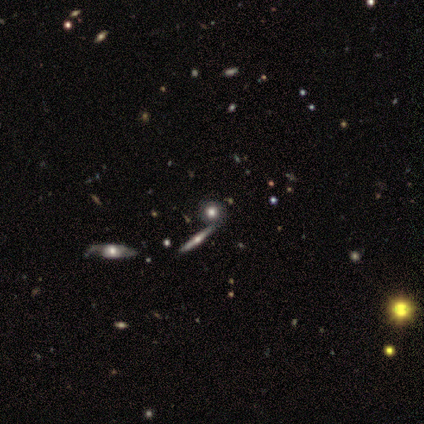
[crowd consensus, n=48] A smooth galaxy with no disk features (56%) that is round (81%). Merging: none (81%).